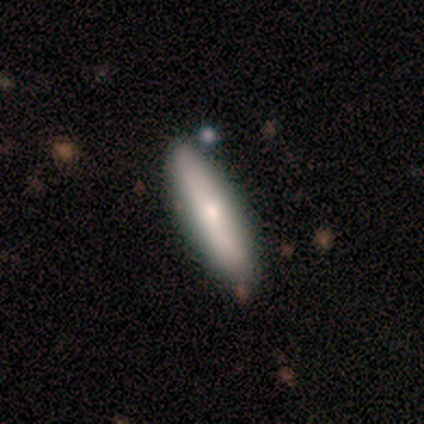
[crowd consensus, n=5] Q: Smooth or featured?
A: smooth (60%); runner-up: featured or disk (40%)
Q: How rounded?
A: in between (100%)
Q: Merging?
A: none (60%); runner-up: minor disturbance (40%)